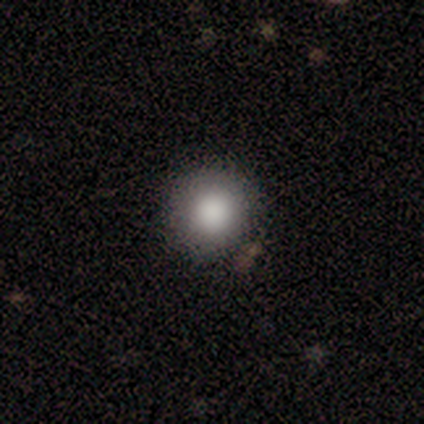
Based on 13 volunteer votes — Smooth or featured: smooth — 100%
How rounded: round — 100%
Merging: none — 85% (minor disturbance — 15%)